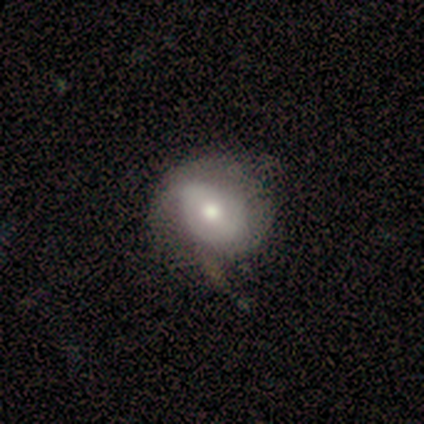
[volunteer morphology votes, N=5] Q: Smooth or featured?
A: featured or disk (60%); runner-up: smooth (40%)
Q: Edge-on disk?
A: no (100%)
Q: Bar?
A: no (67%); runner-up: weak (33%)
Q: Spiral arms?
A: no (67%); runner-up: yes (33%)
Q: Bulge size?
A: moderate (100%)
Q: Merging?
A: none (60%); runner-up: minor disturbance (20%)